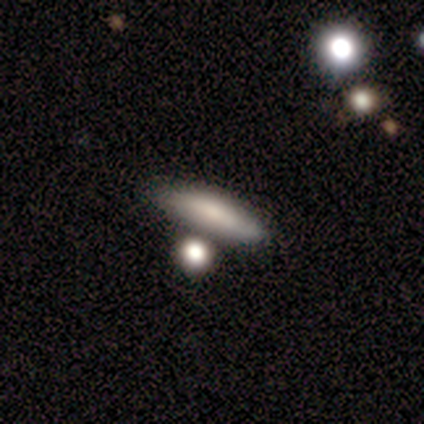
Q: Smooth or featured?
A: smooth (75%); runner-up: featured or disk (25%)
Q: How rounded?
A: cigar-shaped (100%)
Q: Merging?
A: none (50%); runner-up: minor disturbance (25%)